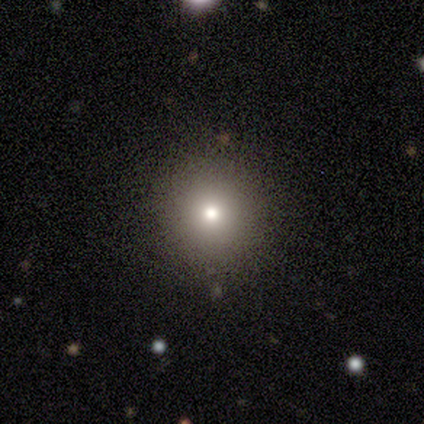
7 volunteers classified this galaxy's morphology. This appears to be a smooth galaxy with no disk features (57%) that is round (100%). Merging: none (80%).